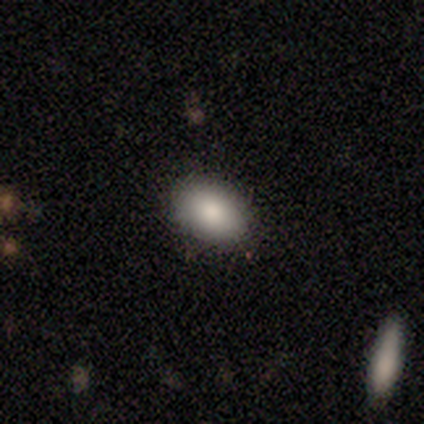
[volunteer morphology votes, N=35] Q: Smooth or featured?
A: smooth (80%); runner-up: star or artifact (14%)
Q: How rounded?
A: in between (89%); runner-up: round (11%)
Q: Merging?
A: none (93%); runner-up: minor disturbance (7%)